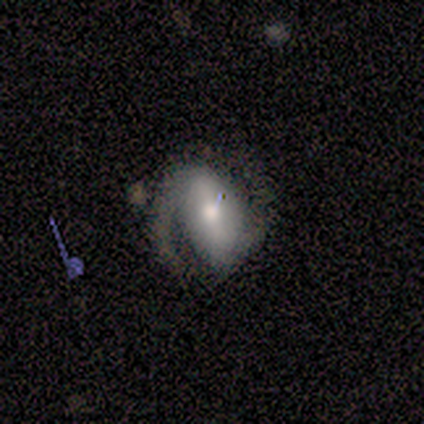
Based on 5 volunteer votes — Overall: featured or disk (100%). Edge-on disk: no (100%). Bar: strong (60%; no 40%). Spiral arms: yes (100%). Spiral arm count: 2 (100%). Spiral winding: tight (60%; loose 40%). Bulge size: moderate (80%). Merging: minor disturbance (60%; none 40%).